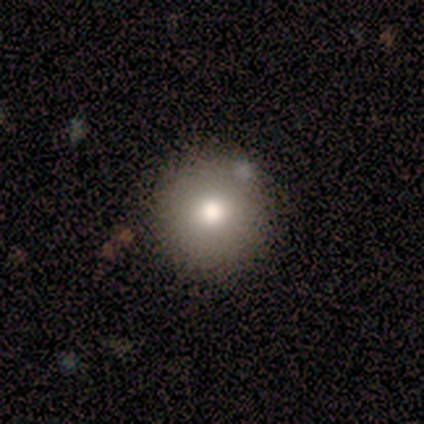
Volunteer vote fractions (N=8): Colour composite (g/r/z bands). It shows a smooth galaxy with no disk features (62%) that is round (100%). Merging: none (86%).